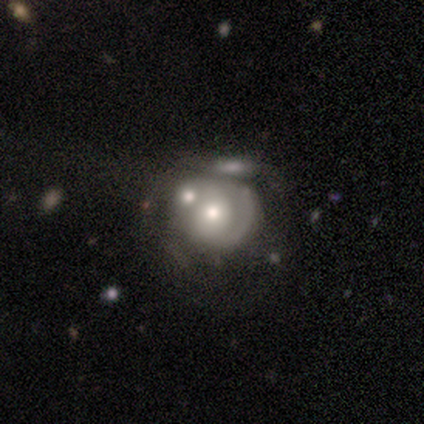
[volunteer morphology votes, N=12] This is possibly a featured or disk galaxy (58%). It is clearly not viewed edge-on (100%). Bar: clearly no (100%). Spiral arm pattern: clearly no (86%). Central bulge: possibly moderate (57%). Merging: likely merger (64%).